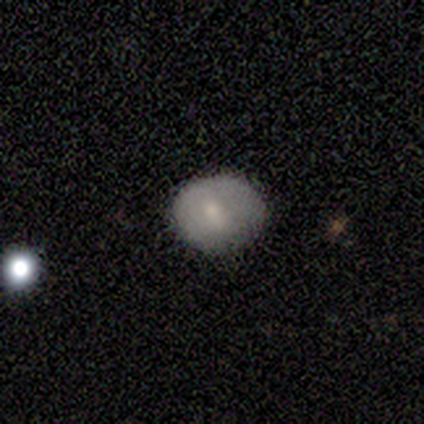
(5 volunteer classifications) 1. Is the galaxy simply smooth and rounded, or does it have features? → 100% smooth, 0% featured or disk, 0% star or artifact.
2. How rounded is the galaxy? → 60% in between, 40% round, 0% cigar-shaped.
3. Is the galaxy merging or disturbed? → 80% none, 20% minor disturbance, 0% major disturbance, 0% merger.